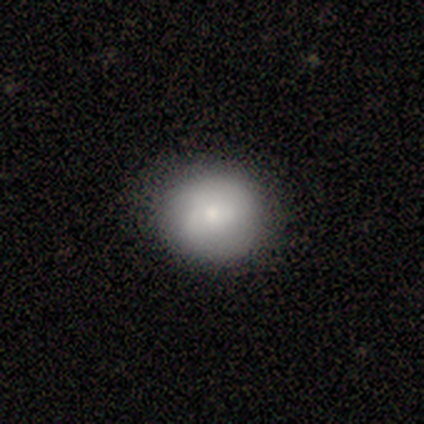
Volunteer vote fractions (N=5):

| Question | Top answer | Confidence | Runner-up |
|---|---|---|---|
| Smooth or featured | smooth | 80% | featured or disk (20%) |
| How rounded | round | 75% | in between (25%) |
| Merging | none | 100% | — |